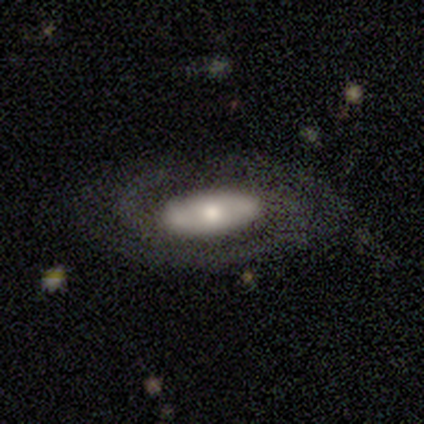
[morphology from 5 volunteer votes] This appears to be a featured or disk galaxy (100%) with no bar (75%), 2 (67%) medium (67%) spiral arms (75%) and a small central bulge (75%). Merging: none (80%).